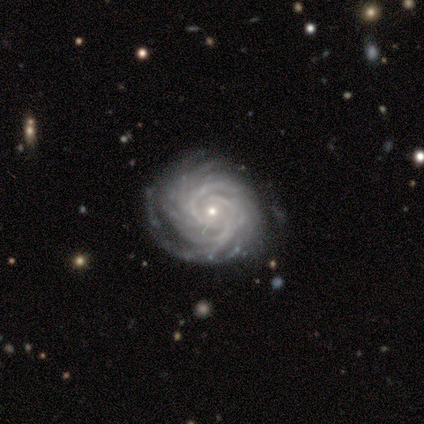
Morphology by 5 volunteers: Smooth or featured? featured or disk (100%)
Edge-on disk? no (100%)
Bar? no (80%)
Spiral arms? yes (80%)
Spiral winding? tight (100%)
Spiral arm count? 3 (25%, tied with 4, more than 4 and can't tell)
Bulge size? small (60%)
Merging? none (80%)